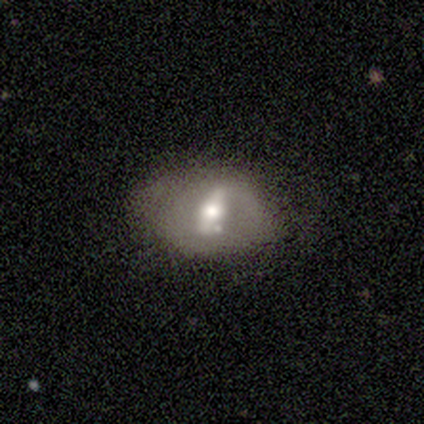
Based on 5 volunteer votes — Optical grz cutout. It shows a featured or disk galaxy (80%) with a strong bar (50%, tied with no), no spiral arms (75%) and a moderate central bulge (100%). Merging: minor disturbance (60%).